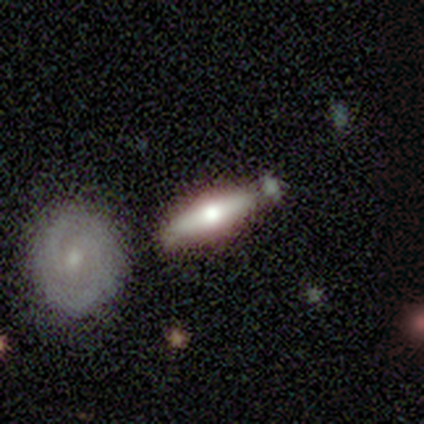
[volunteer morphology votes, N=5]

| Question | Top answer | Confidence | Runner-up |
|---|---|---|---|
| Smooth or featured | smooth | 60% | featured or disk (40%) |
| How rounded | cigar-shaped | 67% | round (33%) |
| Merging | none | 80% | merger (20%) |